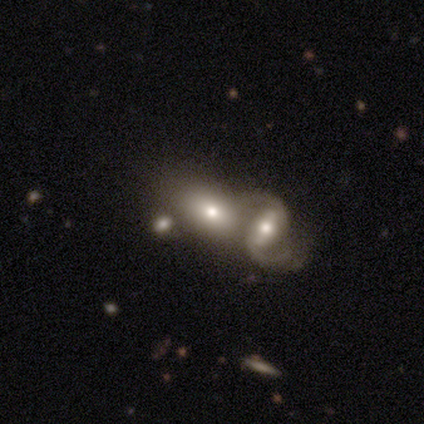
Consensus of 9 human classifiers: Smooth or featured? 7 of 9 (78%) said featured or disk. Edge-on disk? 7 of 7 (100%) said no. Bar? 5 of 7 (71%) said no. Spiral arms? 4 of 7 (57%) said yes. Spiral winding? 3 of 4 (75%) said loose. Spiral arm count? 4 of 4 (100%) said 2. Bulge size? 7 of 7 (100%) said moderate. Merging? 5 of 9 (56%) said merger.